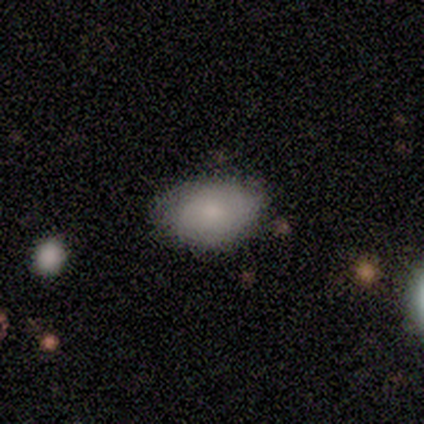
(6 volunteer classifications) smooth_or_featured: smooth (p=0.83) [alt: featured or disk p=0.17]
how_rounded: in between (p=1.00)
merging: none (p=0.50) [tied with: minor disturbance p=0.50]